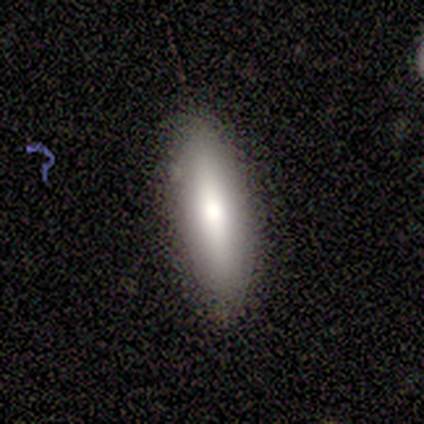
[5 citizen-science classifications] Morphology: type=featured or disk (40%, tied with star or artifact); edge-on=yes (50%, tied with no); edge-on bulge=rounded (100%); merging=none (100%).